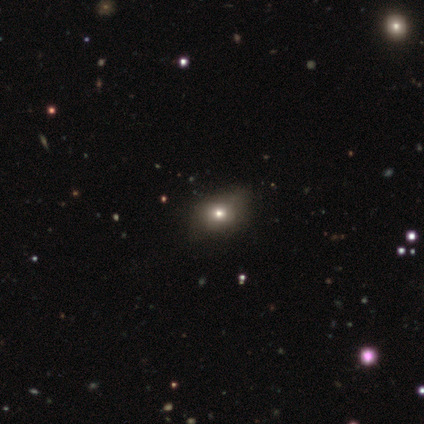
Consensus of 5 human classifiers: Volunteers were most divided on "smooth or featured": smooth: 60%, star or artifact: 40%, featured or disk: 0%. More confident: how rounded — in between (100%); merging — minor disturbance (67%).